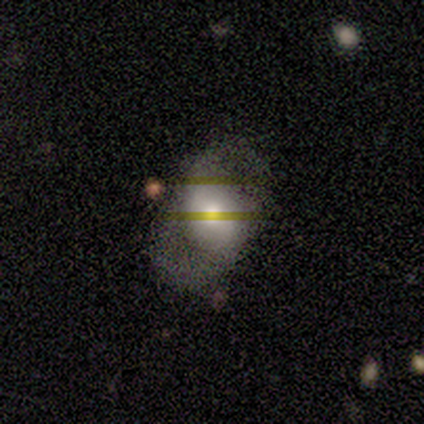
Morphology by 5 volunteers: A featured or disk galaxy (60%) with no bar (67%), 2 (100%) loose (67%) spiral arms (100%) and a moderate central bulge (100%).

Vote fractions:
- Smooth or featured? featured or disk: 60% / smooth: 20% / star or artifact: 20%
- Edge-on disk? no: 100% / yes: 0%
- Bar? no: 67% / weak: 33% / strong: 0%
- Spiral arms? yes: 100% / no: 0%
- Spiral winding? loose: 67% / medium: 33% / tight: 0%
- Spiral arm count? 2: 100% / 1: 0% / 3: 0% / 4: 0% / more than 4: 0% / can't tell: 0%
- Bulge size? moderate: 100% / dominant: 0% / large: 0% / small: 0% / none: 0%
- Merging? none: 50% / minor disturbance: 25% / major disturbance: 25% / merger: 0%